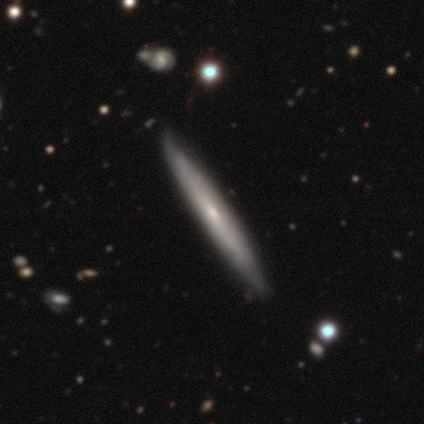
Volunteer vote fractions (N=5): Smooth or featured?
  - featured or disk: 100% *
  - smooth: 0%
  - star or artifact: 0%
Edge-on disk?
  - yes: 100% *
  - no: 0%
Edge-on bulge?
  - none: 60% *
  - rounded: 40%
  - boxy: 0%
Merging?
  - none: 60% *
  - minor disturbance: 20%
  - major disturbance: 20%
  - merger: 0%